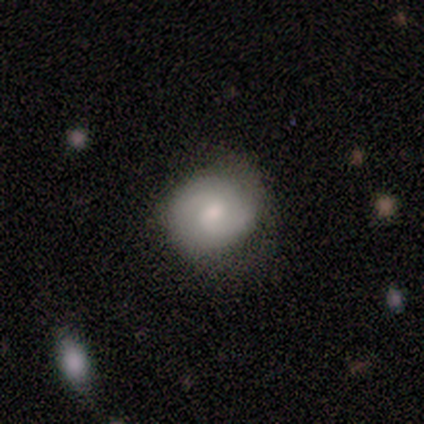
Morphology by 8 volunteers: This is likely a featured or disk galaxy (75%). It is clearly not viewed edge-on (100%). Bar: possibly weak (50%, tied with no). Spiral arm pattern: clearly yes (100%). Spiral arm count: possibly 2 (50%). Spiral winding: likely medium (67%). Central bulge: possibly moderate (50%). Merging: possibly none (57%).